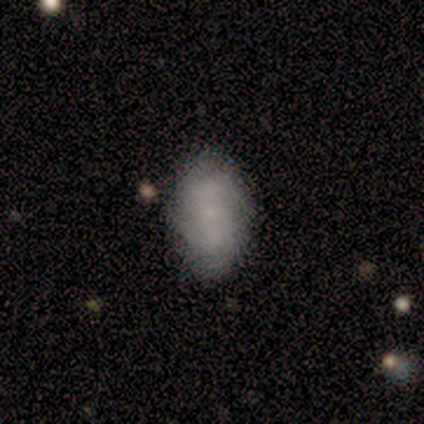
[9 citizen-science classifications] Q: Smooth or featured?
A: smooth (44%); tied with: featured or disk (44%)
Q: How rounded?
A: in between (75%); runner-up: round (25%)
Q: Merging?
A: none (75%); runner-up: minor disturbance (25%)